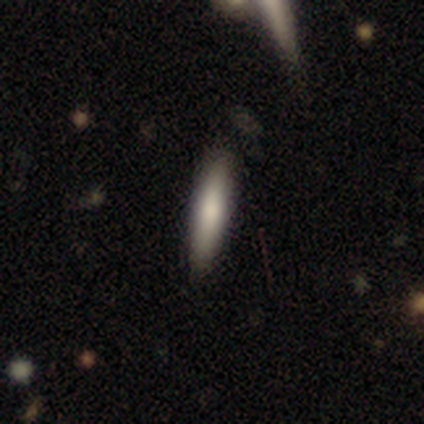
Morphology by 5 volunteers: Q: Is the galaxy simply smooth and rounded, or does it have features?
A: smooth — 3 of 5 (60%).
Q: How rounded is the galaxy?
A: cigar-shaped — 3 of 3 (100%).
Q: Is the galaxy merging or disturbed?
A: none — 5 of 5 (100%).